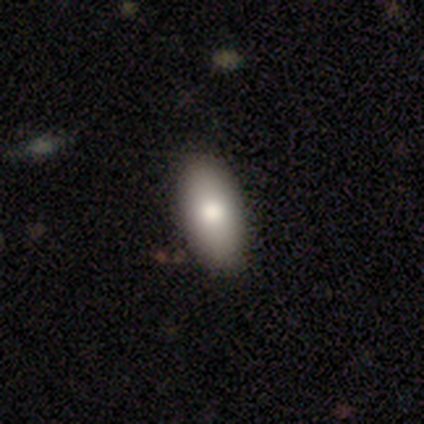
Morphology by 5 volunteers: type=smooth (80%); roundness=in between (100%); merging=none (100%).